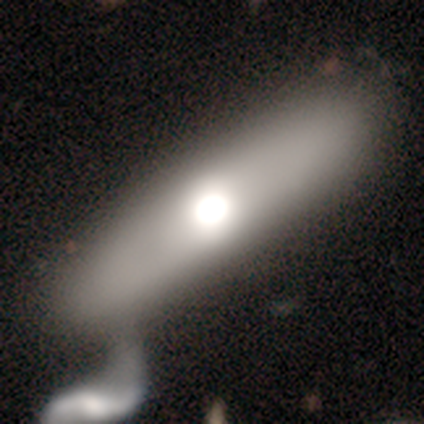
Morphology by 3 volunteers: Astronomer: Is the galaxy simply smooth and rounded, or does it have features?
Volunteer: featured or disk — 100%.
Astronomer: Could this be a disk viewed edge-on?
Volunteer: yes — 67%.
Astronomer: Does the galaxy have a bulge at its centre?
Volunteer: rounded — 100%.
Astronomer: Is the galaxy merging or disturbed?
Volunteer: none — 33%, tied with minor disturbance and merger at 33%.